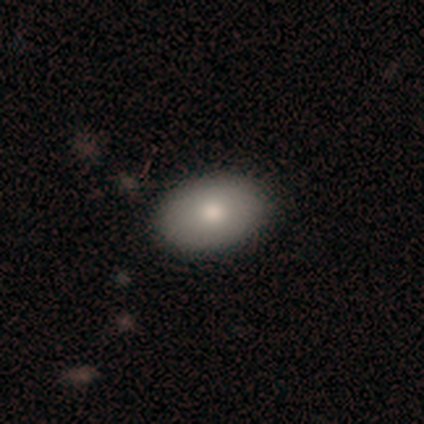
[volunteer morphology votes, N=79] This appears to be a smooth galaxy with no disk features (85%) that is in between round and cigar-shaped (96%). Merging: none (46%).